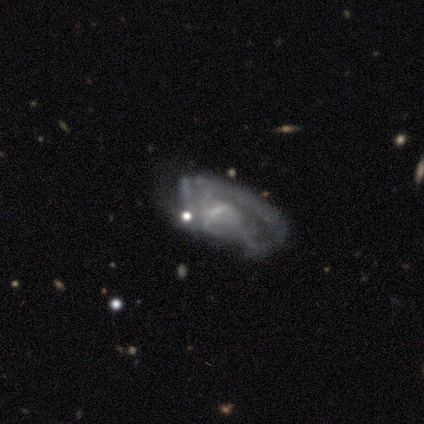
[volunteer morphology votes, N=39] A featured or disk galaxy (82%) with a weak bar (55%), medium (59%) spiral arms (71%) and a small central bulge (48%).

Vote fractions:
- Smooth or featured? featured or disk: 82% / smooth: 10% / star or artifact: 8%
- Edge-on disk? no: 97% / yes: 3%
- Bar? weak: 55% / no: 35% / strong: 10%
- Spiral arms? yes: 71% / no: 29%
- Spiral winding? medium: 59% / loose: 23% / tight: 18%
- Spiral arm count? can't tell: 59% / 3: 18% / 1: 14% / 2: 9% / 4: 0% / more than 4: 0%
- Bulge size? small: 48% / none: 39% / moderate: 13% / dominant: 0% / large: 0%
- Merging? major disturbance: 42% / minor disturbance: 31% / none: 28% / merger: 0%